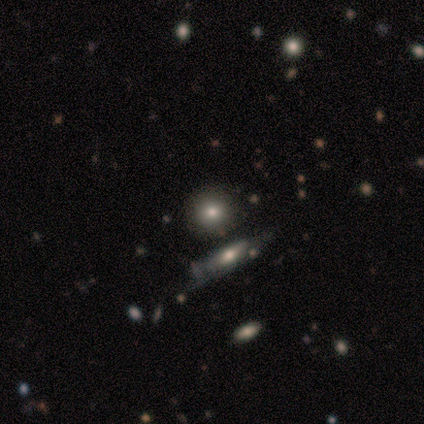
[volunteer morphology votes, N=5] A smooth galaxy with no disk features (40%, tied with featured or disk) that is round (100%). Merging: none (75%).